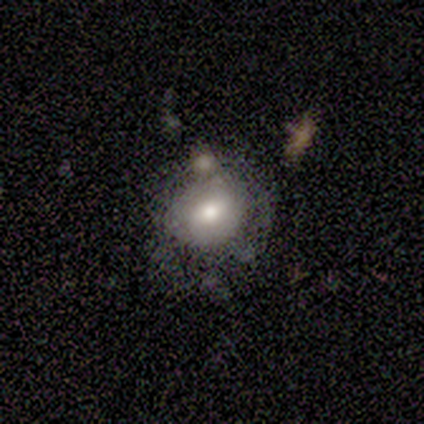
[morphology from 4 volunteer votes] A smooth galaxy with no disk features (75%) that is round (67%). Merging: none (75%).